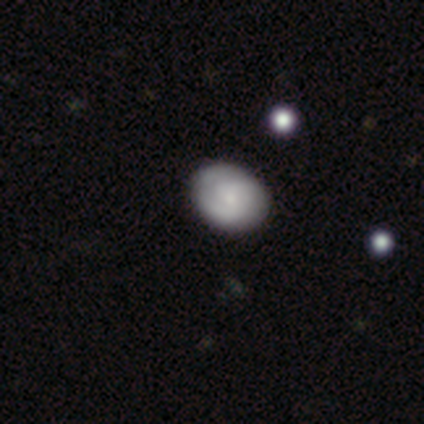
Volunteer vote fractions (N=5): Smooth or featured? smooth (80%)
How rounded? round (100%)
Merging? none (100%)